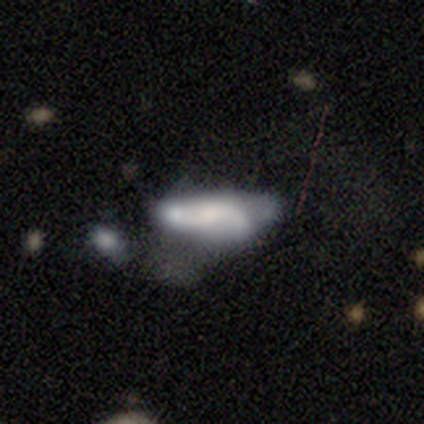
Q: Smooth or featured?
A: smooth (100%)
Q: How rounded?
A: in between (80%); runner-up: cigar-shaped (20%)
Q: Merging?
A: major disturbance (40%); runner-up: none (20%)